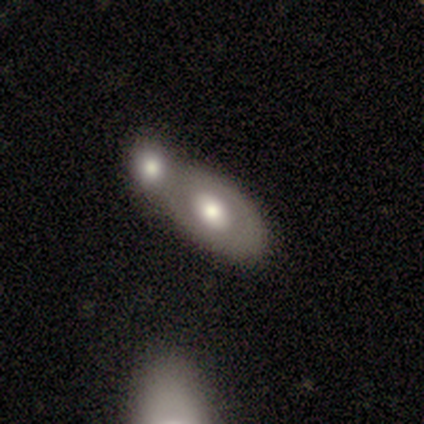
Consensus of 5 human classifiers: Smooth or featured? featured or disk (80%)
Edge-on disk? no (100%)
Bar? no (100%)
Spiral arms? no (75%)
Bulge size? large (50%, tied with moderate)
Merging? merger (100%)